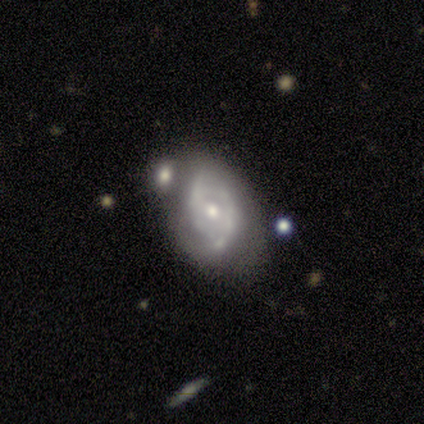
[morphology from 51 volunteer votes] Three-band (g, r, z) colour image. It shows a featured or disk galaxy (86%) with no bar (73%), 2 (83%) tight (46%) spiral arms (80%) and a moderate central bulge (50%). Merging: none (43%).